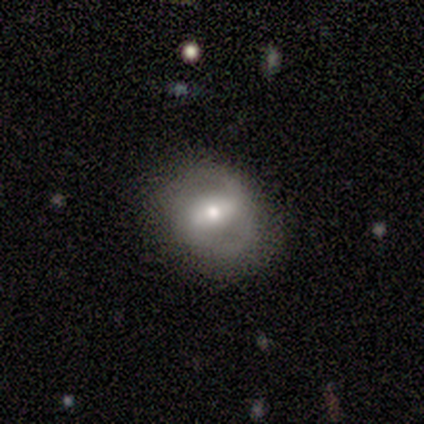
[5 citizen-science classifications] Volunteers were most divided on "smooth or featured": featured or disk: 60%, smooth: 40%, star or artifact: 0%. More confident: edge-on disk — no (100%); bar — strong (100%); merging — none (80%); spiral arms — no (67%); bulge size — moderate (67%).